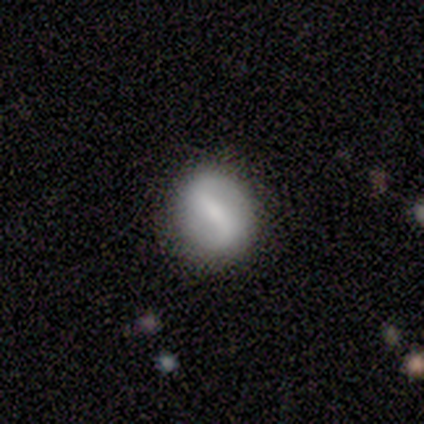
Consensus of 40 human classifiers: A featured or disk galaxy (68%) with a strong bar (74%), 2 (87%) loose (57%) spiral arms (85%) and a small central bulge (48%). Merging: none (85%).